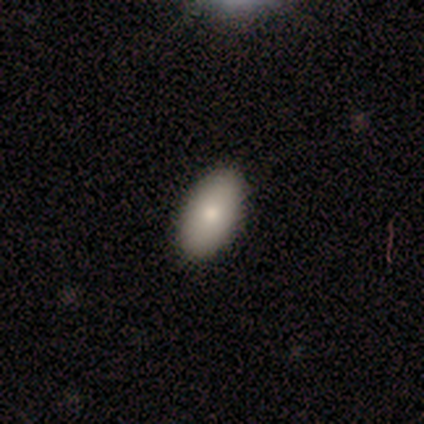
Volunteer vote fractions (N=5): Smooth or featured? smooth (100%)
How rounded? in between (100%)
Merging? none (100%)